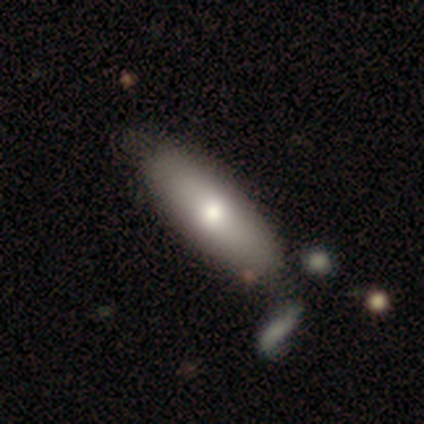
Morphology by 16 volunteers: A smooth galaxy with no disk features (88%) that is in between round and cigar-shaped (64%).

Vote fractions:
- Smooth or featured? smooth: 88% / featured or disk: 12% / star or artifact: 0%
- How rounded? in between: 64% / cigar-shaped: 36% / round: 0%
- Merging? none: 62% / minor disturbance: 31% / major disturbance: 6% / merger: 0%